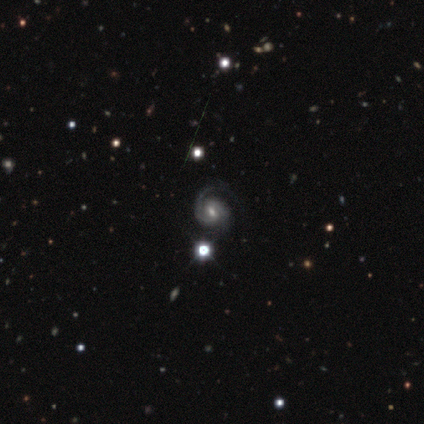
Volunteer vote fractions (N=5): smooth_or_featured: featured or disk (p=0.80) [alt: star or artifact p=0.20]
disk_edge_on: no (p=1.00)
bar: weak (p=0.50) [alt: strong p=0.25]
has_spiral_arms: yes (p=1.00)
spiral_winding: medium (p=0.75) [alt: tight p=0.25]
spiral_arm_count: 2 (p=1.00)
bulge_size: moderate (p=0.50) [alt: dominant p=0.25]
merging: none (p=1.00)